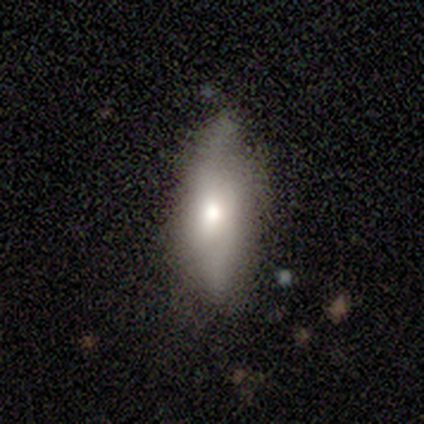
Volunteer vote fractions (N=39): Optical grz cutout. It shows a smooth galaxy with no disk features (46%) that is in between round and cigar-shaped (61%). Merging: none (66%).